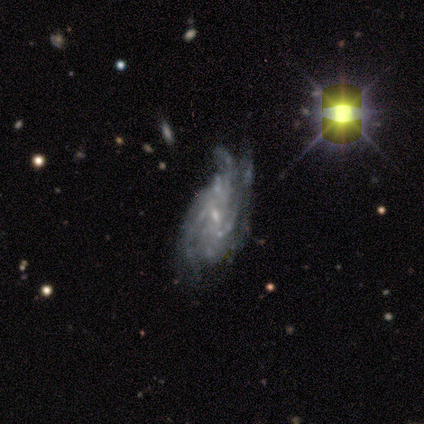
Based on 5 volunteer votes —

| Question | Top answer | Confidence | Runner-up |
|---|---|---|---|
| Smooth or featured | featured or disk | 60% | smooth (20%) |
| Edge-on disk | no | 100% | — |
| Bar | no | 67% | strong (33%) |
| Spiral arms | yes | 100% | — |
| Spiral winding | tight | 100% | — |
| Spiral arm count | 3 | 33% | tied: 4 (33%), can't tell (33%) |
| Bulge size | small | 67% | moderate (33%) |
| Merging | none | 50% | minor disturbance (25%) |